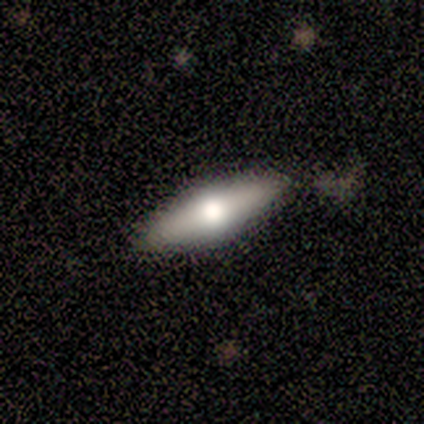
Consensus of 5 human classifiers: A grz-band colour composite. It shows a smooth galaxy with no disk features (60%) that is in between round and cigar-shaped (67%). Merging: none (80%).